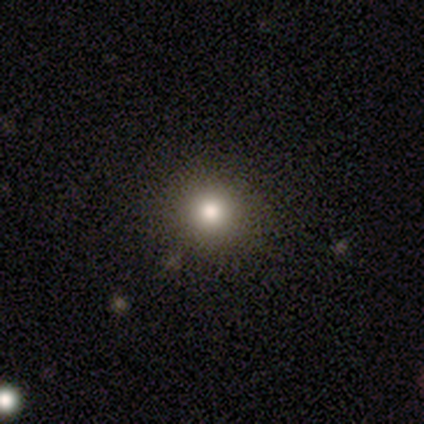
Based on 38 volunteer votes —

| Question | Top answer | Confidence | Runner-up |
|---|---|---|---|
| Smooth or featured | smooth | 84% | star or artifact (11%) |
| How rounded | round | 91% | in between (9%) |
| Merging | none | 65% | minor disturbance (3%) |